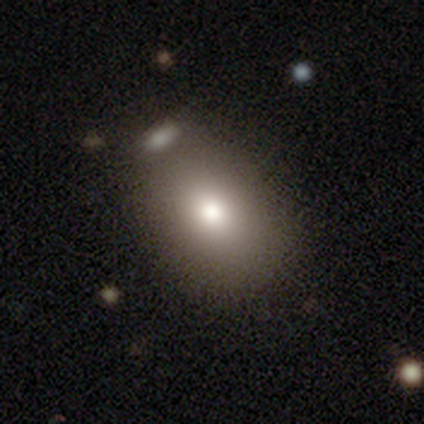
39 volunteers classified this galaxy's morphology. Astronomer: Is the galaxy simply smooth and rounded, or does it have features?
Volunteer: smooth — 79%.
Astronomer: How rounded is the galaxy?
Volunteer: in between — 71%.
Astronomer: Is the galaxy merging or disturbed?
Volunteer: none — 46%.